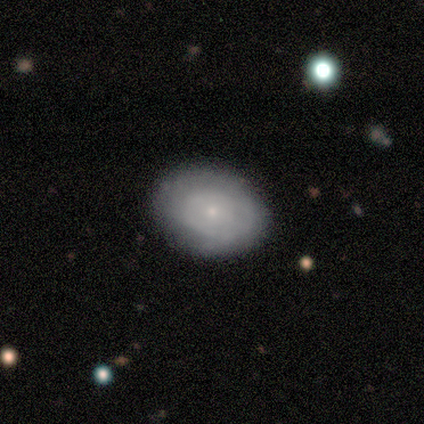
A featured or disk galaxy (80%) with no bar (100%), tight (50%, tied with medium) spiral arms (50%, tied with no) and a small central bulge (100%). Merging: none (100%).